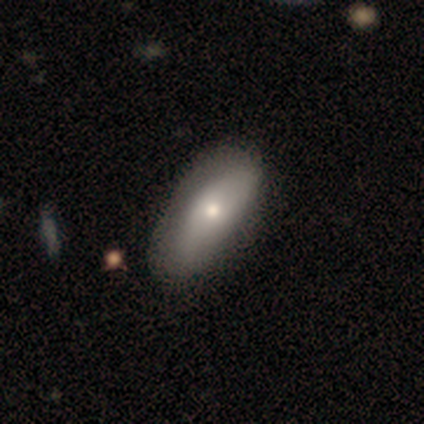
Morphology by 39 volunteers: This appears to be a smooth galaxy with no disk features (67%) that is in between round and cigar-shaped (85%). Merging: none (58%).